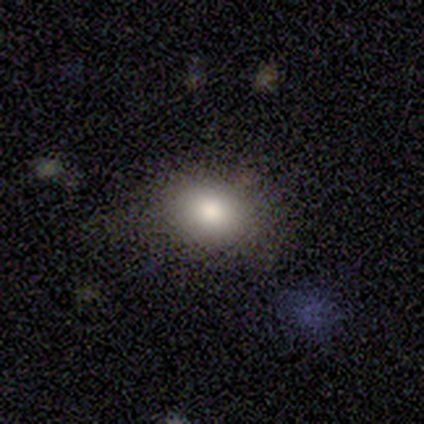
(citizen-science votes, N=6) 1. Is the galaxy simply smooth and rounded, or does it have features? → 83% smooth, 17% star or artifact, 0% featured or disk.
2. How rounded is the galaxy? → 60% round, 40% in between, 0% cigar-shaped.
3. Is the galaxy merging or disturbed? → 60% none, 20% minor disturbance, 20% major disturbance, 0% merger.